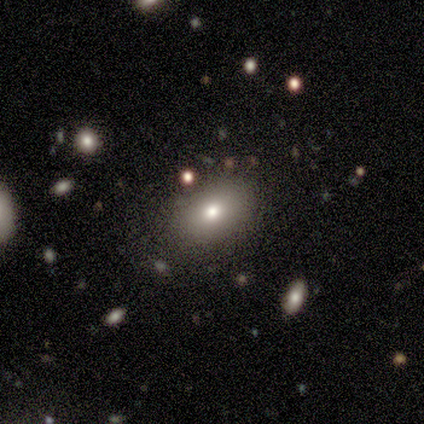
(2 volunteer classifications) smooth_or_featured: smooth (p=1.00)
how_rounded: in between (p=1.00)
merging: none (p=1.00)